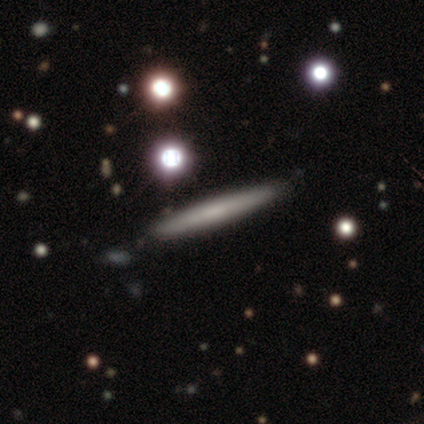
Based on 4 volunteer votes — smooth_or_featured: smooth (p=0.50) [tied with: featured or disk p=0.50]
how_rounded: cigar-shaped (p=1.00)
merging: none (p=0.75) [alt: minor disturbance p=0.25]